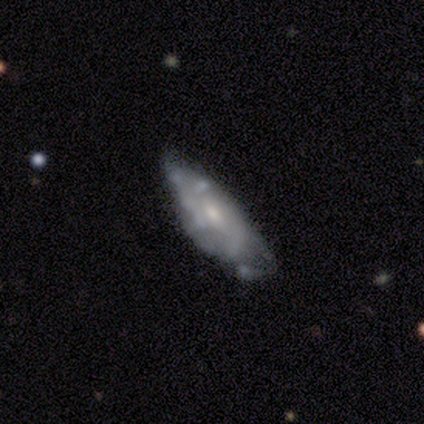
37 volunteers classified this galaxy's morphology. Overall: featured or disk (59%; smooth 35%). Edge-on disk: no (77%). Bar: no (71%). Spiral arms: yes (59%; no 41%). Spiral arm count: can't tell (60%; 2 30%). Spiral winding: medium (50%; tight 40%). Bulge size: moderate (59%; small 35%). Merging: none (43%; minor disturbance 37%).